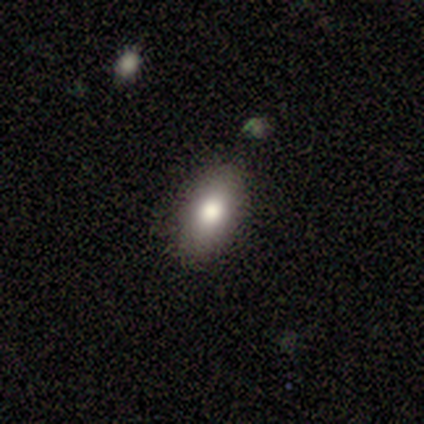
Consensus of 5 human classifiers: Smooth or featured?
  - smooth: 100% *
  - featured or disk: 0%
  - star or artifact: 0%
How rounded?
  - in between: 80% *
  - cigar-shaped: 20%
  - round: 0%
Merging?
  - none: 60% *
  - minor disturbance: 40%
  - major disturbance: 0%
  - merger: 0%